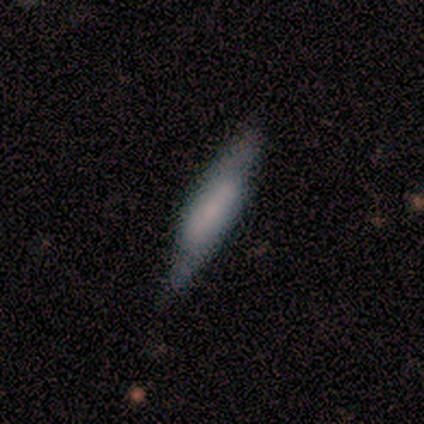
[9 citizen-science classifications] Smooth or featured? smooth (56%)
How rounded? cigar-shaped (80%)
Merging? none (75%)